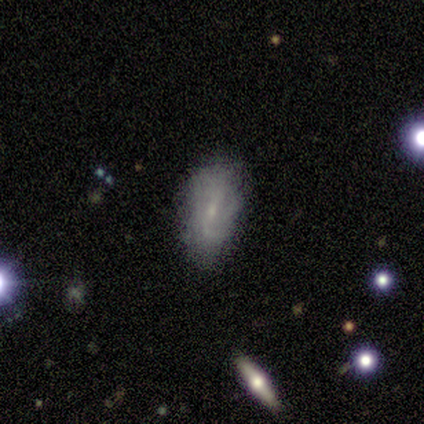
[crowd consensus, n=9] Morphology: type=featured or disk (44%); edge-on=no (100%); bar=weak (75%); spiral arms=yes (75%); winding=tight (33%, tied with medium and loose); arm count=1 (33%, tied with 2 and can't tell); bulge=small (75%); merging=none (71%).